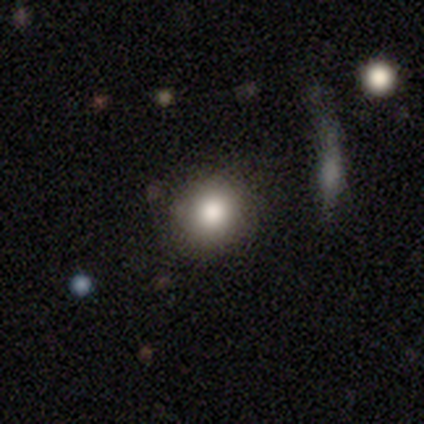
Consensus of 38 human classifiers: A smooth galaxy with no disk features (89%) that is round (85%). Merging: none (89%).